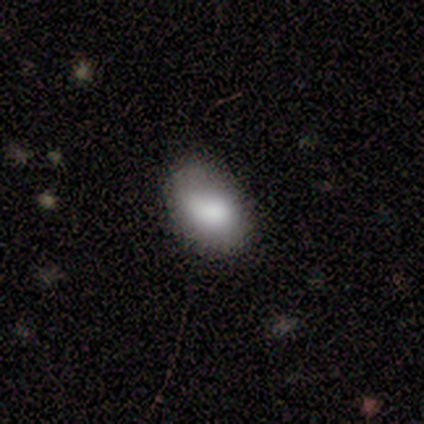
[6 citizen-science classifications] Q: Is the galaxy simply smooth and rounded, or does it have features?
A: smooth — 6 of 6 (100%).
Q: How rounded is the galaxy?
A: in between — 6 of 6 (100%).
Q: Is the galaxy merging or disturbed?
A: none — 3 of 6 (50%, tied with minor disturbance).